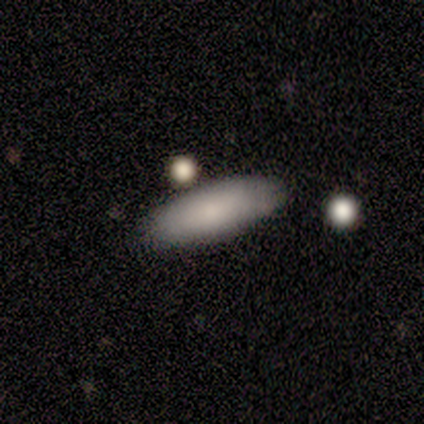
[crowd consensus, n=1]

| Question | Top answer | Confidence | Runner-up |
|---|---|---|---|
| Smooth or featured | smooth | 100% | — |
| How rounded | in between | 100% | — |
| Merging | none | 100% | — |